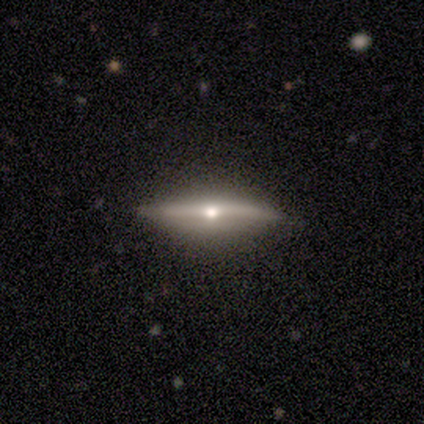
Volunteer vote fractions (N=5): This appears to be a featured or disk galaxy (80%) viewed edge-on (100%) with a rounded central bulge (100%). Merging: none (80%).